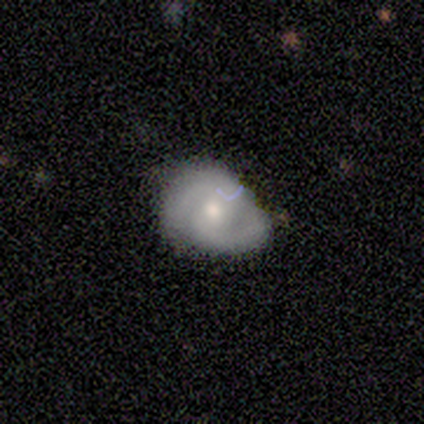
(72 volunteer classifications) This is likely a featured or disk galaxy (72%). It is clearly not viewed edge-on (100%). Bar: possibly no (60%). Spiral arm pattern: clearly yes (98%). Spiral arm count: clearly 2 (90%). Spiral winding: possibly medium (45%). Central bulge: likely moderate (65%). Merging: possibly minor disturbance (50%).